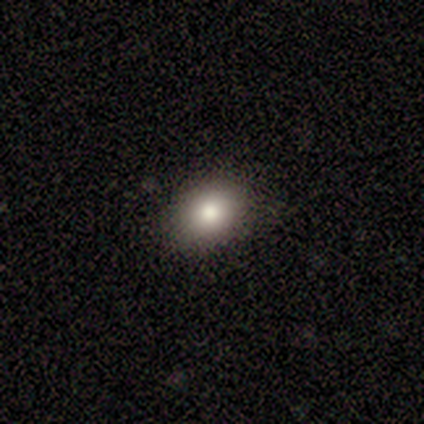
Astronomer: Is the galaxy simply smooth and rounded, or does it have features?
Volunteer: smooth — 89%.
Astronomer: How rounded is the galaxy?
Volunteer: in between — 74%.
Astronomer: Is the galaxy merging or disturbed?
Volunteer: none — 89%.